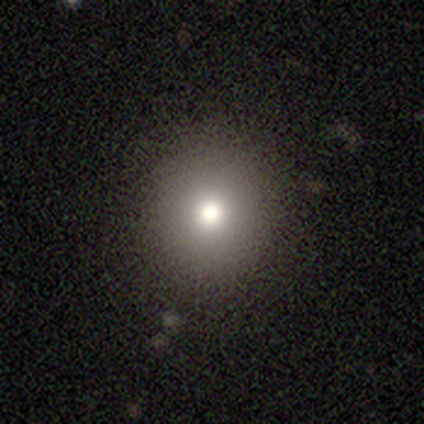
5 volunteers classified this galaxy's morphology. smooth 100%, featured or disk 0%, star or artifact 0%. Down the decision tree: how rounded — round (80%); merging — none (60%).